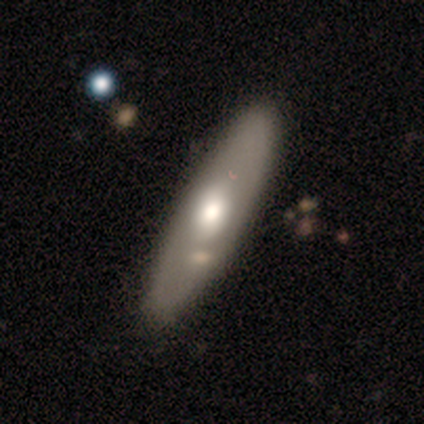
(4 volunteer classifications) Q: Smooth or featured?
A: smooth (50%); tied with: featured or disk (50%)
Q: How rounded?
A: round (50%); tied with: cigar-shaped (50%)
Q: Merging?
A: none (50%); runner-up: minor disturbance (25%)